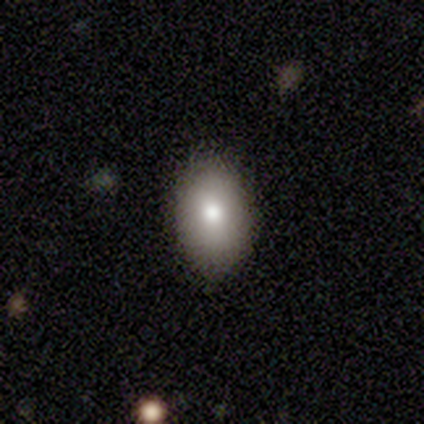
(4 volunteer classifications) Volunteers were most divided on "merging": none: 67%, minor disturbance: 33%, major disturbance: 0%, merger: 0%. More confident: how rounded — in between (100%); smooth or featured — smooth (75%).